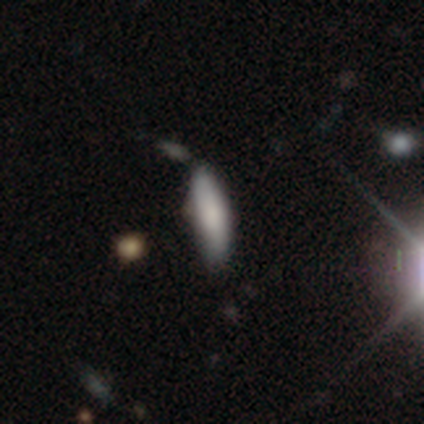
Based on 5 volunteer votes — A smooth galaxy with no disk features (100%) that is in between round and cigar-shaped (80%).

Vote fractions:
- Smooth or featured? smooth: 100% / featured or disk: 0% / star or artifact: 0%
- How rounded? in between: 80% / cigar-shaped: 20% / round: 0%
- Merging? none: 60% / minor disturbance: 40% / major disturbance: 0% / merger: 0%